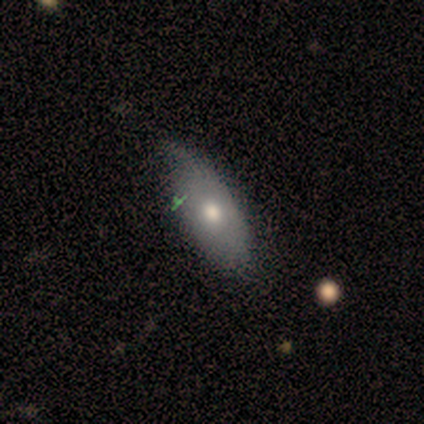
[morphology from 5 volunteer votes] smooth 80%, featured or disk 20%, star or artifact 0%. Down the decision tree: how rounded — in between (75%); merging — minor disturbance (60%).